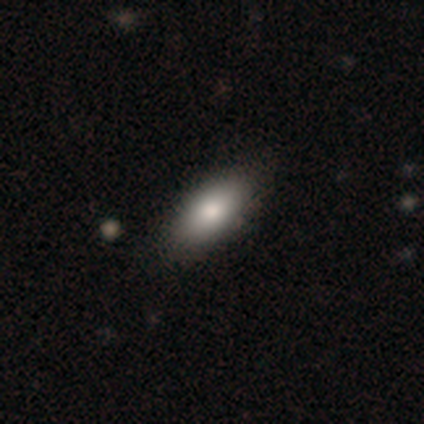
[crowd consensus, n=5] Morphology: type=smooth (80%); roundness=in between (100%); merging=none (100%).